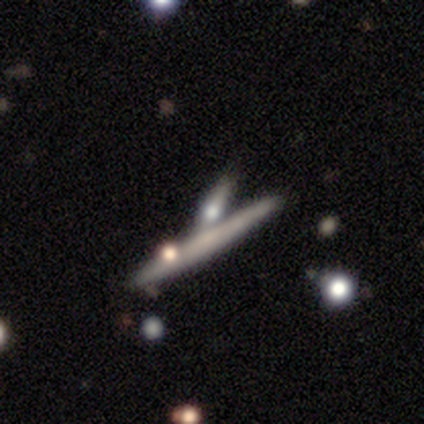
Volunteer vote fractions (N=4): Volunteers were most divided on "edge-on bulge" (2-way tie): none: 50%, rounded: 50%, boxy: 0%. More confident: smooth or featured — featured or disk (75%); merging — none (75%); edge-on disk — yes (67%).